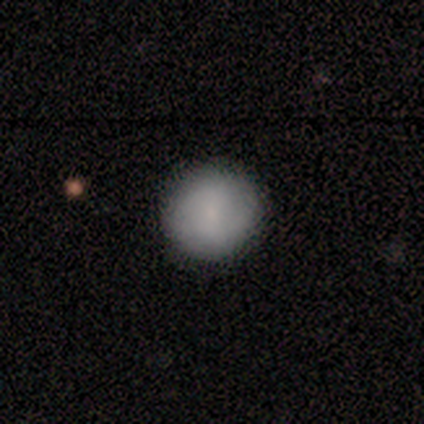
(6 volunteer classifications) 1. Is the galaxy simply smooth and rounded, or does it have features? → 67% smooth, 33% featured or disk, 0% star or artifact.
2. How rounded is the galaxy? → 100% round, 0% in between, 0% cigar-shaped.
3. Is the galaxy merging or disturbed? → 67% none, 33% minor disturbance, 0% major disturbance, 0% merger.